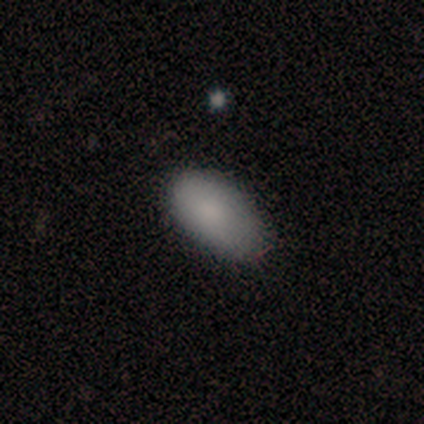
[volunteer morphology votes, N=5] Smooth or featured: smooth — 80% (featured or disk — 20%)
How rounded: in between — 100%
Merging: none — 80% (minor disturbance — 20%)